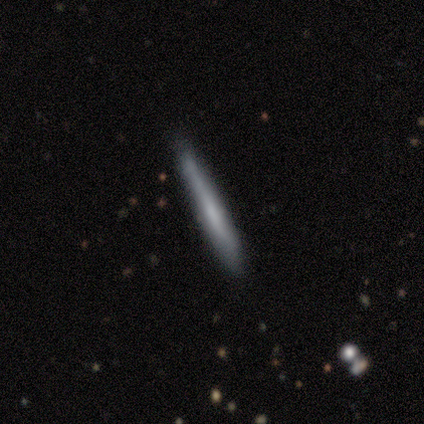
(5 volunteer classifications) Smooth or featured: smooth — 100%
How rounded: cigar-shaped — 100%
Merging: none — 80% (minor disturbance — 20%)